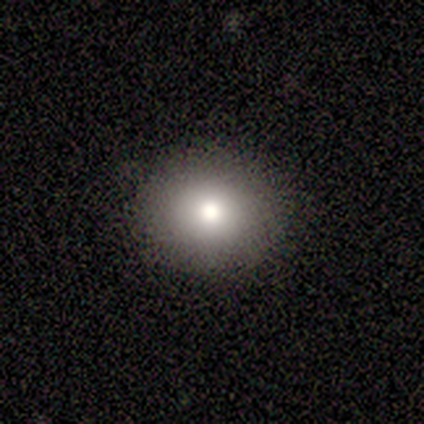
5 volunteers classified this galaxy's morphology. A smooth galaxy with no disk features (80%) that is round (75%). Merging: none (100%).